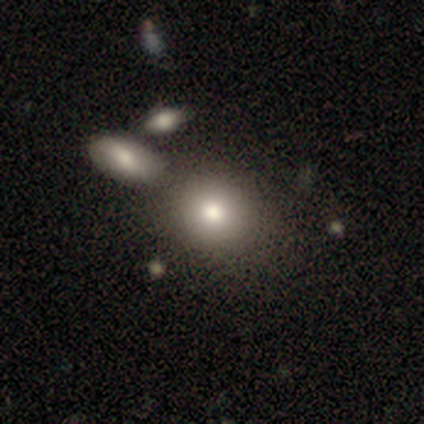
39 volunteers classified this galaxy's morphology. This is clearly a smooth galaxy (90%). How rounded: likely round (74%). Merging: possibly none (58%).